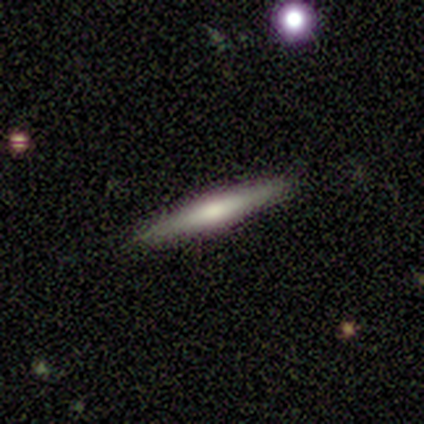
Morphology: type=smooth (60%); roundness=cigar-shaped (100%); merging=none (100%).